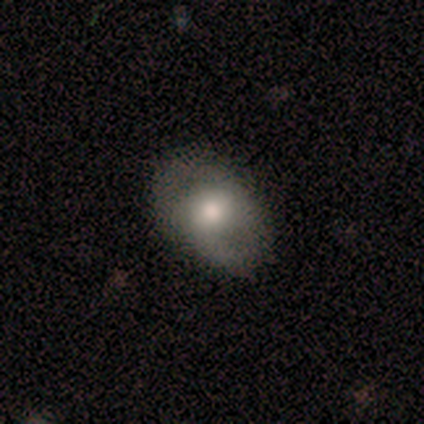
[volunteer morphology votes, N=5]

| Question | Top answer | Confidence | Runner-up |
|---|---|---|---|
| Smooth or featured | featured or disk | 60% | smooth (20%) |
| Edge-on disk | no | 100% | — |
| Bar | no | 100% | — |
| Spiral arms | yes | 67% | no (33%) |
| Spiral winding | medium | 100% | — |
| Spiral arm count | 2 | 100% | — |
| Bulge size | large | 33% | tied: moderate (33%), small (33%) |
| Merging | none | 100% | — |